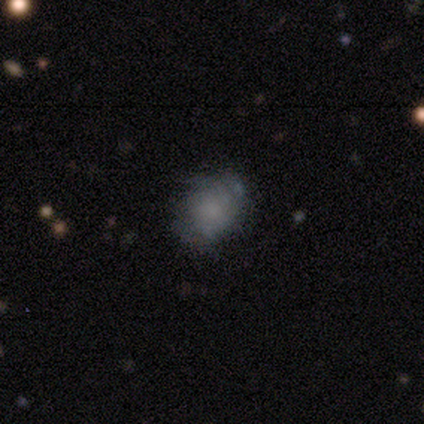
Overall: smooth (80%). How rounded: round (75%). Merging: none (100%).